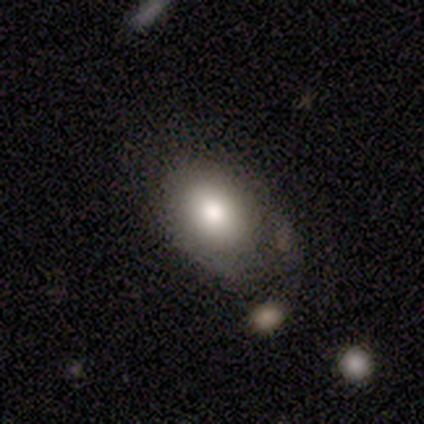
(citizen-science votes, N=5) smooth 100%, featured or disk 0%, star or artifact 0%. Down the decision tree: how rounded — in between (100%); merging — none (40%).